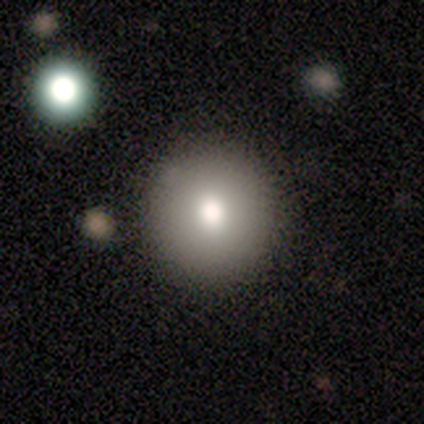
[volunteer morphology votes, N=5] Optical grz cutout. It shows a featured or disk galaxy (60%) with no bar (100%), no spiral arms (100%) and a moderate central bulge (67%). Merging: none (80%).